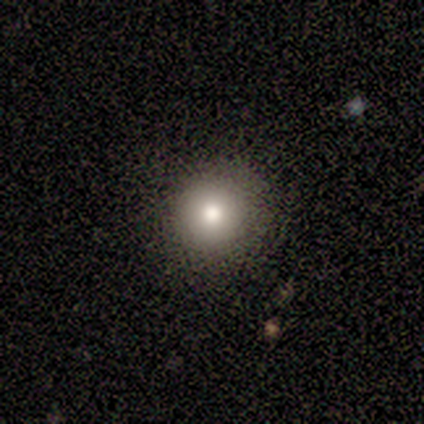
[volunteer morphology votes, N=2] Smooth or featured?
  - smooth: 100% *
  - featured or disk: 0%
  - star or artifact: 0%
How rounded?
  - round: 100% *
  - in between: 0%
  - cigar-shaped: 0%
Merging?
  - none: 50% * (tied)
  - major disturbance: 50% * (tied)
  - minor disturbance: 0%
  - merger: 0%